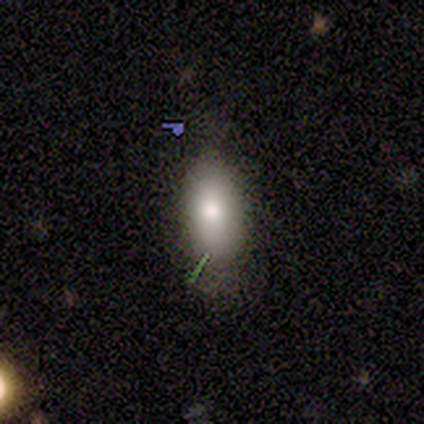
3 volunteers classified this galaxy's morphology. smooth-or-featured: smooth: 67% | featured or disk: 33% | star or artifact: 0%
  how-rounded: in between: 100% | round: 0% | cigar-shaped: 0%
  merging: none: 67% | minor disturbance: 33% | major disturbance: 0% | merger: 0%